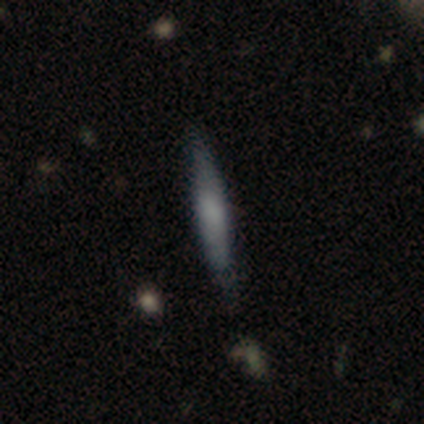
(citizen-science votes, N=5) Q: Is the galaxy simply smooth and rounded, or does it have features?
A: smooth — 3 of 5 (60%).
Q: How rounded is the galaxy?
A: cigar-shaped — 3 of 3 (100%).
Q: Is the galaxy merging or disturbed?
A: none — 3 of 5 (60%).